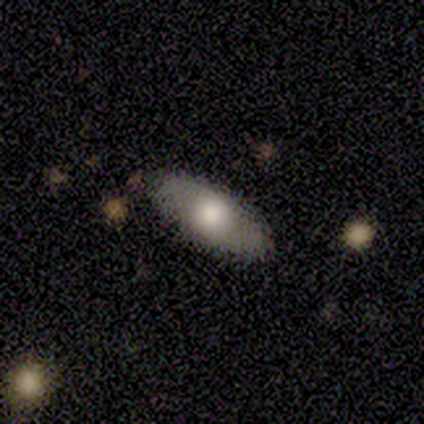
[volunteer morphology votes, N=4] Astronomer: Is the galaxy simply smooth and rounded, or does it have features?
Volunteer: smooth — 75%.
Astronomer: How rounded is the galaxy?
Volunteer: in between — 100%.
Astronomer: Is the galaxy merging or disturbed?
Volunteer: none — 100%.